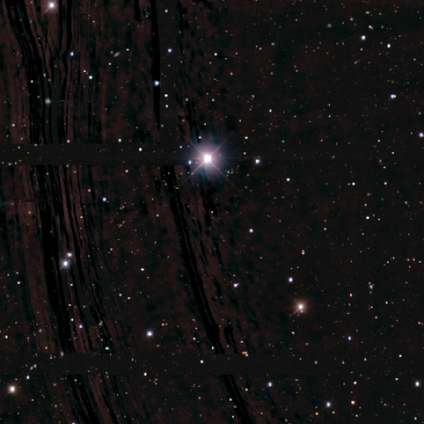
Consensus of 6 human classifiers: A star or artifact, not a galaxy (100%).

Vote fractions:
- Smooth or featured? star or artifact: 100% / smooth: 0% / featured or disk: 0%